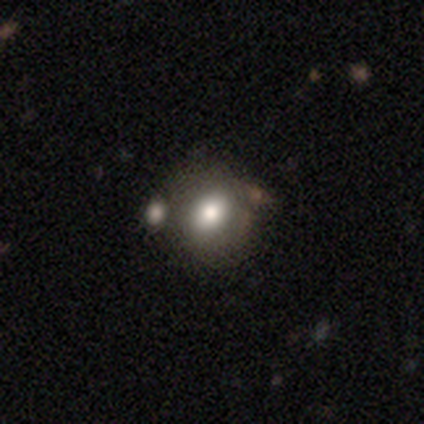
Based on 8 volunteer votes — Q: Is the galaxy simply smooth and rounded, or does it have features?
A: smooth — 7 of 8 (88%).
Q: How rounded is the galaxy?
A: in between — 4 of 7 (57%).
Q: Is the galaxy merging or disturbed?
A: none — 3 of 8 (38%, tied with minor disturbance).